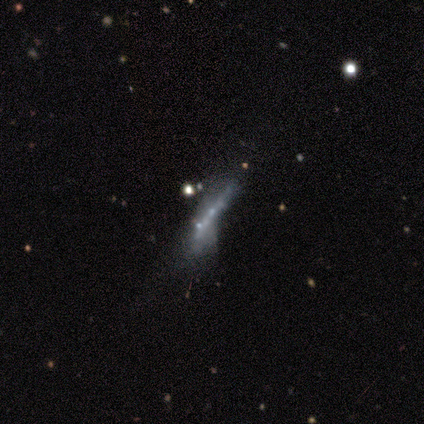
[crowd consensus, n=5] A featured or disk galaxy (60%) viewed edge-on (67%) with no central bulge (50%, tied with rounded).

Vote fractions:
- Smooth or featured? featured or disk: 60% / smooth: 40% / star or artifact: 0%
- Edge-on disk? yes: 67% / no: 33%
- Edge-on bulge? none: 50% (tied) / rounded: 50% (tied) / boxy: 0%
- Merging? minor disturbance: 40% (tied) / major disturbance: 40% (tied) / none: 20% / merger: 0%